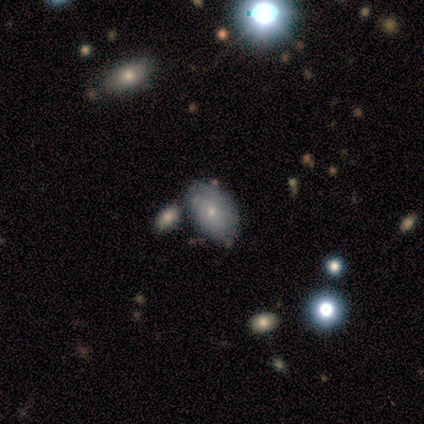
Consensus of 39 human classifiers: smooth_or_featured: smooth (p=0.59) [alt: featured or disk p=0.36]
how_rounded: in between (p=0.87) [alt: round p=0.13]
merging: none (p=0.62) [alt: minor disturbance p=0.16]